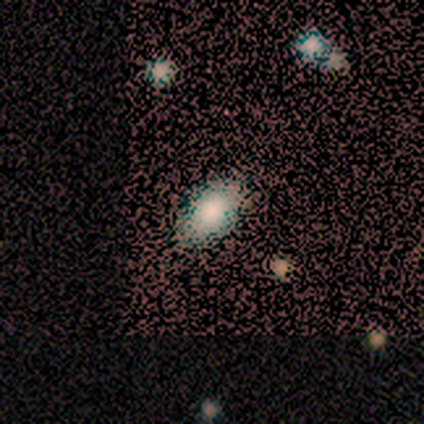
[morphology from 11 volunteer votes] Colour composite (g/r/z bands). It shows a smooth galaxy with no disk features (82%) that is in between round and cigar-shaped (89%). Merging: none (89%).